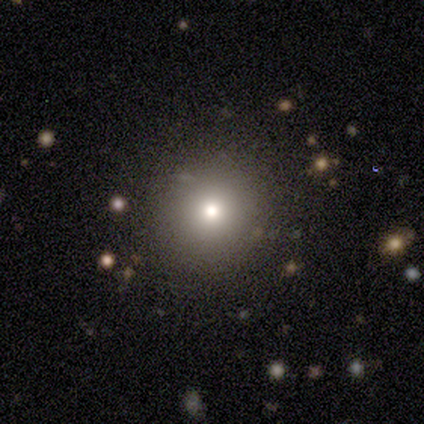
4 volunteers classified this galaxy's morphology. Smooth or featured? smooth (75%)
How rounded? round (100%)
Merging? none (50%, tied with minor disturbance)